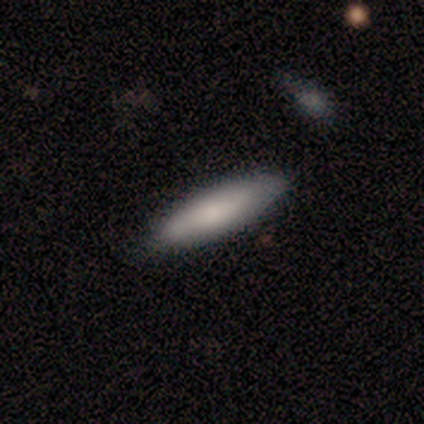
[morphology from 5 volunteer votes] Smooth or featured: smooth — 60% (featured or disk — 40%)
How rounded: cigar-shaped — 67% (in between — 33%)
Merging: none — 80% (minor disturbance — 20%)